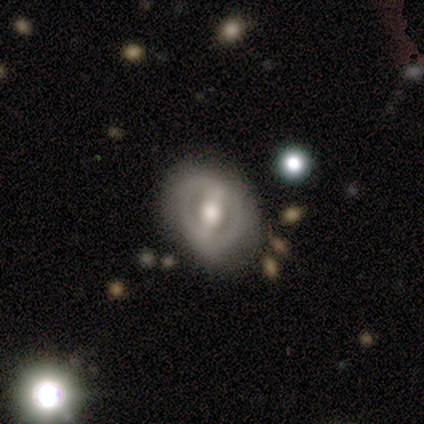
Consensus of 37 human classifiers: Overall: featured or disk (73%). Edge-on disk: no (96%). Bar: strong (92%). Spiral arms: yes (50%, tied with no). Spiral arm count: 2 (77%). Spiral winding: tight (69%). Bulge size: moderate (81%). Merging: none (68%).